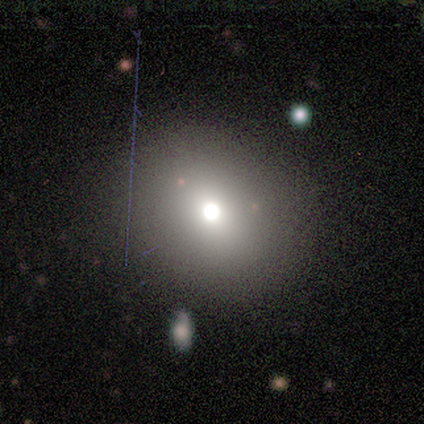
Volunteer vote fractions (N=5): Smooth or featured: smooth — 100%
How rounded: round — 60% (in between — 40%)
Merging: none — 60% (minor disturbance — 20%)